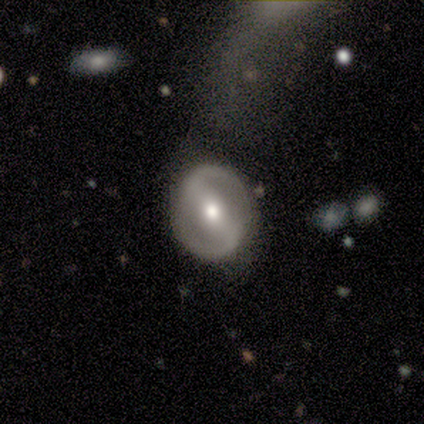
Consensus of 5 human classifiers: Volunteers were most divided on "spiral arms": no: 67%, yes: 33%. More confident: edge-on disk — no (100%); bar — strong (100%); bulge size — moderate (100%); merging — none (75%); smooth or featured — featured or disk (60%).